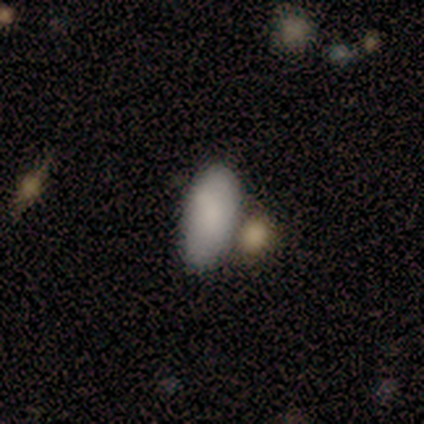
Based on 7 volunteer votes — Smooth or featured? 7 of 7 (100%) said smooth. How rounded? 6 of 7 (86%) said in between. Merging? 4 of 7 (57%) said merger.